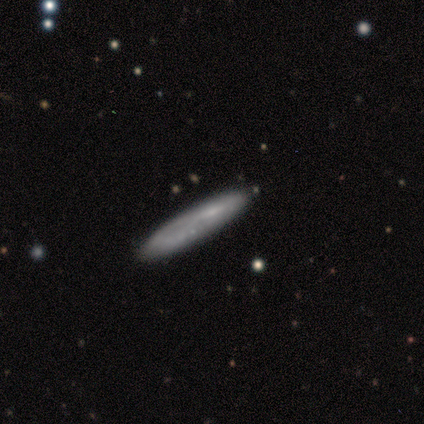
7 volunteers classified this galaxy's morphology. type=smooth (71%); roundness=cigar-shaped (80%); merging=none (71%).